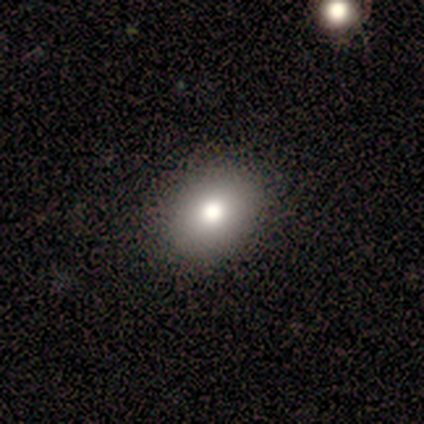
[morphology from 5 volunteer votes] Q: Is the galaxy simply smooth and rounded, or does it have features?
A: smooth — 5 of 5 (100%).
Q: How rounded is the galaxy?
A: in between — 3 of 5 (60%).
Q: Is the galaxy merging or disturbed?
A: none — 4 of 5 (80%).